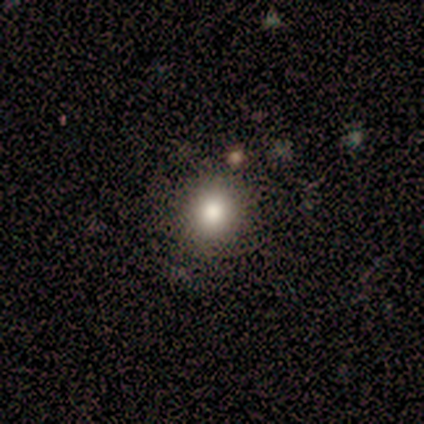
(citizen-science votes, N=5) smooth-or-featured: smooth: 100% | featured or disk: 0% | star or artifact: 0%
  how-rounded: round: 60% | in between: 40% | cigar-shaped: 0%
  merging: none: 60% | minor disturbance: 20% | major disturbance: 20% | merger: 0%